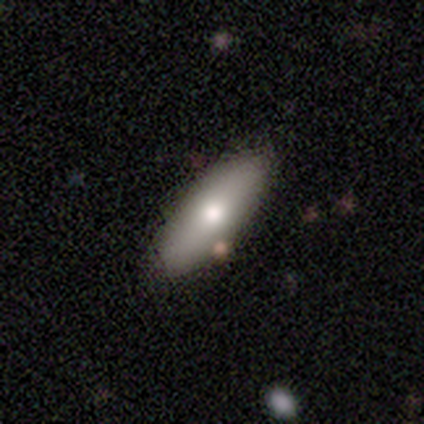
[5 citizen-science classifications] Smooth or featured: smooth — 80% (star or artifact — 20%)
How rounded: in between — 50% (tied with cigar-shaped — 50%)
Merging: none — 100%